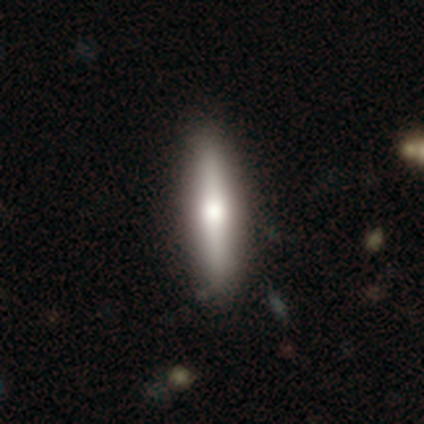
This appears to be a smooth galaxy with no disk features (53%) that is cigar-shaped (83%). Merging: none (47%).